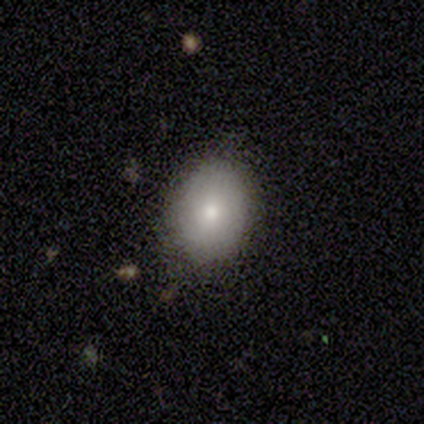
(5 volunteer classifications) smooth-or-featured: smooth: 100% | featured or disk: 0% | star or artifact: 0%
  how-rounded: in between: 60% | round: 40% | cigar-shaped: 0%
  merging: none: 100% | minor disturbance: 0% | major disturbance: 0% | merger: 0%